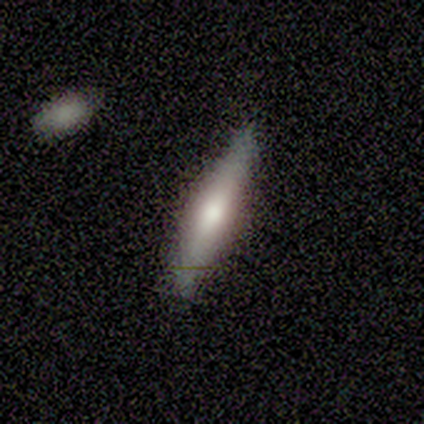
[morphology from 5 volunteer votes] Smooth or featured?
  - smooth: 60% *
  - featured or disk: 40%
  - star or artifact: 0%
How rounded?
  - cigar-shaped: 100% *
  - round: 0%
  - in between: 0%
Merging?
  - none: 60% *
  - minor disturbance: 40%
  - major disturbance: 0%
  - merger: 0%